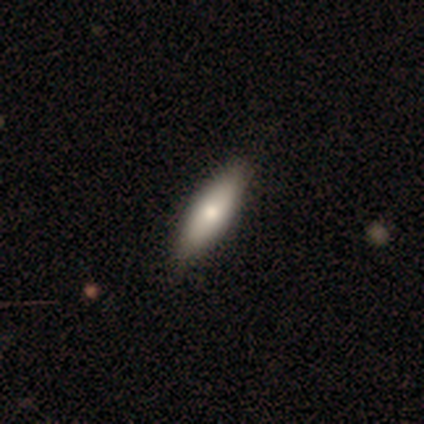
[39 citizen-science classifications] Morphology: type=smooth (77%); roundness=in between (67%); merging=none (55%).